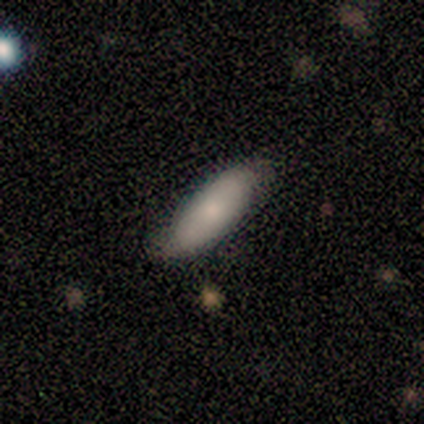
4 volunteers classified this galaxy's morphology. type=smooth (75%); roundness=in between (67%); merging=minor disturbance (50%).